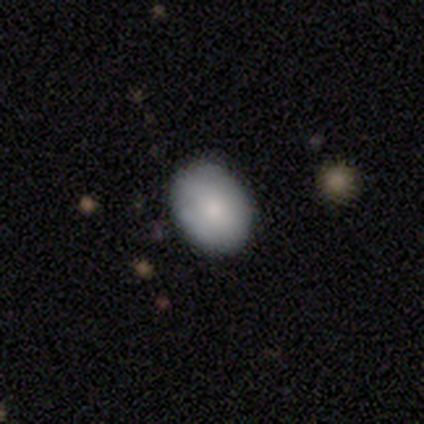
Smooth or featured? 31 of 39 (79%) said smooth. How rounded? 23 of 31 (74%) said in between. Merging? 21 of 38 (55%) said none.